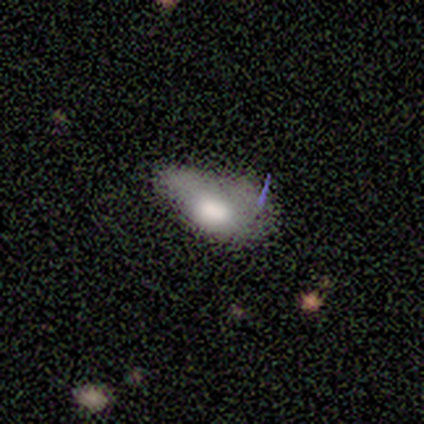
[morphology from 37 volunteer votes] smooth_or_featured: smooth (p=0.59) [alt: featured or disk p=0.22]
how_rounded: in between (p=0.86) [alt: round p=0.09]
merging: none (p=0.47) [alt: minor disturbance p=0.30]